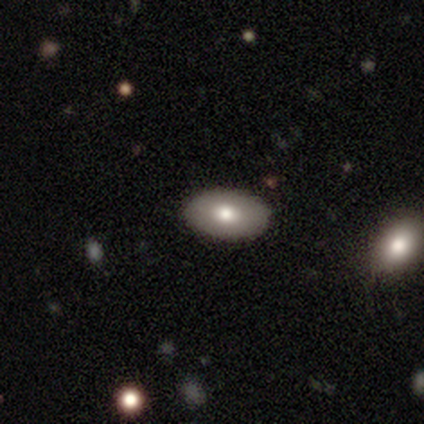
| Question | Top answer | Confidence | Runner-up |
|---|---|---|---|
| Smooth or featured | smooth | 80% | featured or disk (20%) |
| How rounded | in between | 100% | — |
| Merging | none | 60% | minor disturbance (40%) |